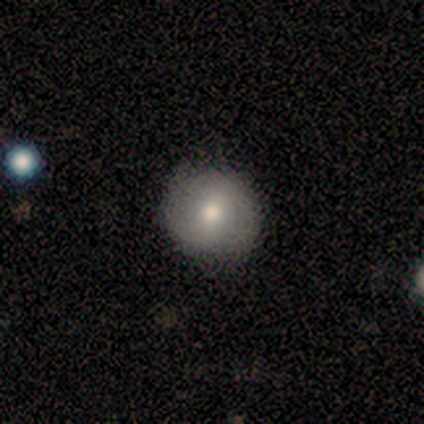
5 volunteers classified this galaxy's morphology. Overall: featured or disk (60%; smooth 40%). Edge-on disk: no (100%). Bar: strong (33%, tied with weak and no). Spiral arms: no (67%; yes 33%). Bulge size: moderate (67%; large 33%). Merging: none (60%; minor disturbance 40%).